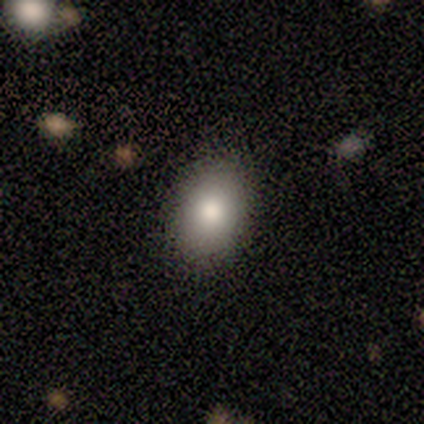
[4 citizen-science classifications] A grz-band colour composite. It shows a smooth galaxy with no disk features (100%) that is in between round and cigar-shaped (75%). Merging: none (75%).